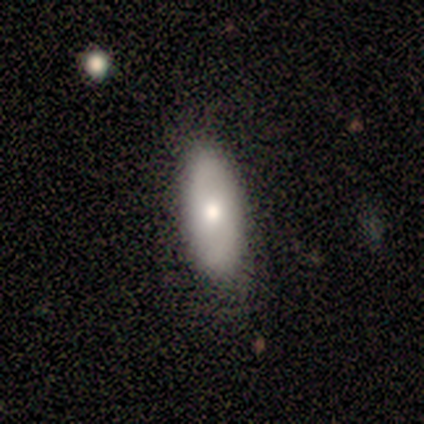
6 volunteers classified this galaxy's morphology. type=smooth (100%); roundness=in between (83%); merging=none (83%).